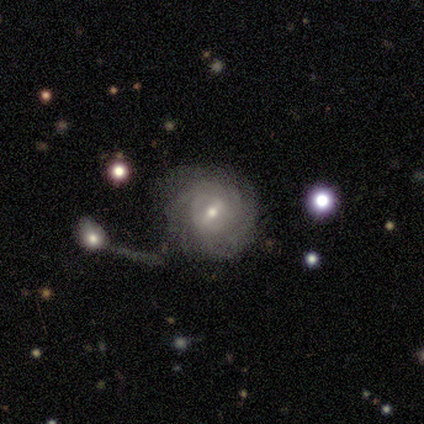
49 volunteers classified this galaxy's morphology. Smooth or featured? featured or disk (76%)
Edge-on disk? no (100%)
Bar? weak (62%)
Spiral arms? yes (100%)
Spiral winding? tight (84%)
Spiral arm count? can't tell (57%)
Bulge size? moderate (54%)
Merging? none (33%)